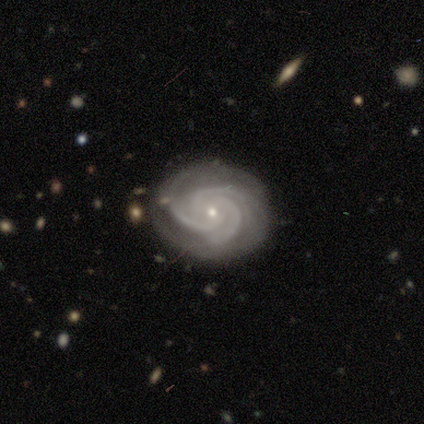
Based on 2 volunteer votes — Smooth or featured? 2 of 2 (100%) said featured or disk. Edge-on disk? 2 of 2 (100%) said no. Bar? 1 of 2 (50%, tied with no) said weak. Spiral arms? 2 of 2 (100%) said yes. Spiral winding? 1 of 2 (50%, tied with medium) said tight. Spiral arm count? 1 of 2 (50%, tied with more than 4) said 3. Bulge size? 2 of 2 (100%) said small. Merging? 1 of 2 (50%, tied with major disturbance) said none.